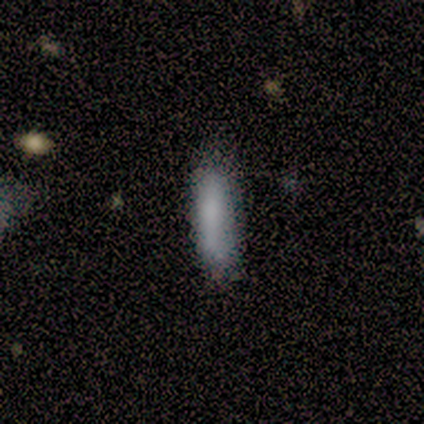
Q: Smooth or featured?
A: smooth (100%)
Q: How rounded?
A: in between (60%); runner-up: cigar-shaped (40%)
Q: Merging?
A: none (100%)